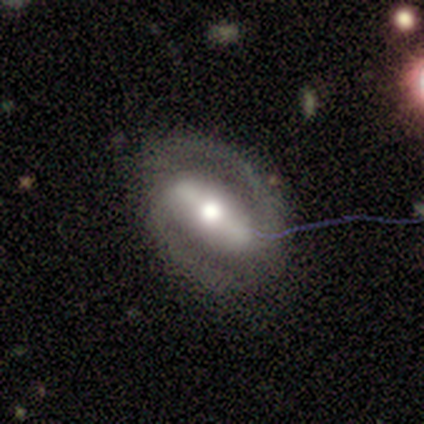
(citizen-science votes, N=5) Smooth or featured? 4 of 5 (80%) said featured or disk. Edge-on disk? 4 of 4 (100%) said no. Bar? 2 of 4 (50%, tied with weak) said strong. Spiral arms? 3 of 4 (75%) said yes. Spiral winding? 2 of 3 (67%) said tight. Spiral arm count? 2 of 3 (67%) said 2. Bulge size? 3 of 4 (75%) said moderate. Merging? 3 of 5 (60%) said none.